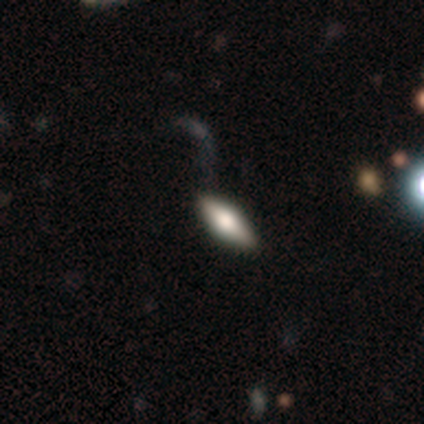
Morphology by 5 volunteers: Volunteers were most divided on "edge-on bulge": rounded: 75%, boxy: 25%, none: 0%. More confident: edge-on disk — yes (100%); smooth or featured — featured or disk (80%); merging — none (80%).